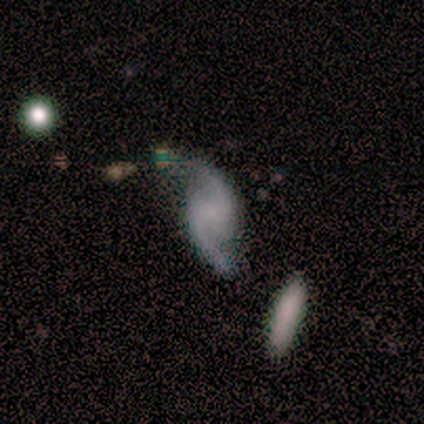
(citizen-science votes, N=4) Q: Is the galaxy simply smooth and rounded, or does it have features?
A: featured or disk — 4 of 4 (100%).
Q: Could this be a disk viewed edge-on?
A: yes — 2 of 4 (50%, tied with no).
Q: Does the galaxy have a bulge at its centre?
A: rounded — 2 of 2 (100%).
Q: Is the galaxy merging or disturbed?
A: none — 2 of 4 (50%).